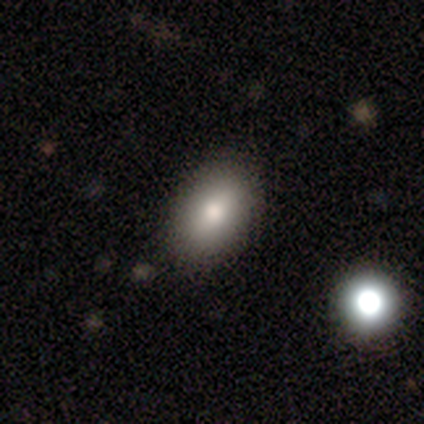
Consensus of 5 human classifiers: A smooth galaxy with no disk features (80%) that is in between round and cigar-shaped (100%). Merging: none (100%).